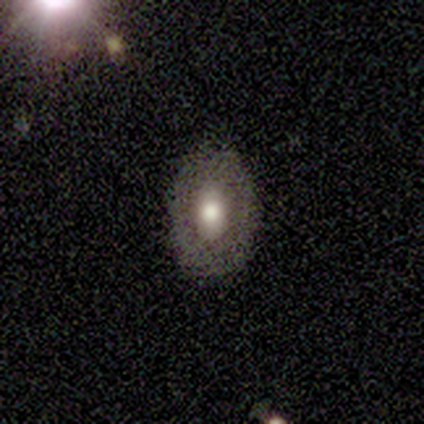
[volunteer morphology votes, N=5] This is clearly a featured or disk galaxy (80%). It is likely not viewed edge-on (75%). Bar: clearly no (100%). Spiral arm pattern: clearly no (100%). Central bulge: likely moderate (67%). Merging: possibly none (50%).